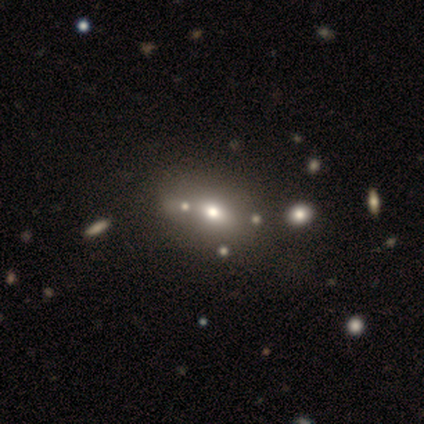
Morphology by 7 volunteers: Volunteers were most divided on "how rounded": in between: 67%, round: 33%, cigar-shaped: 0%. More confident: merging — none (100%); smooth or featured — smooth (86%).